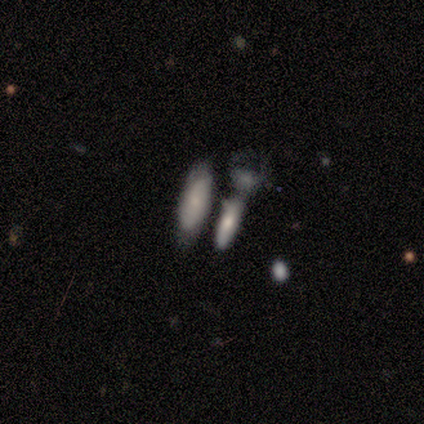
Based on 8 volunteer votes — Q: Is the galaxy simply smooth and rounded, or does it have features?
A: smooth — 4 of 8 (50%).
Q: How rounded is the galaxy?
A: in between — 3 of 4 (75%).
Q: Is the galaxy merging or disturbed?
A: merger — 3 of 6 (50%).